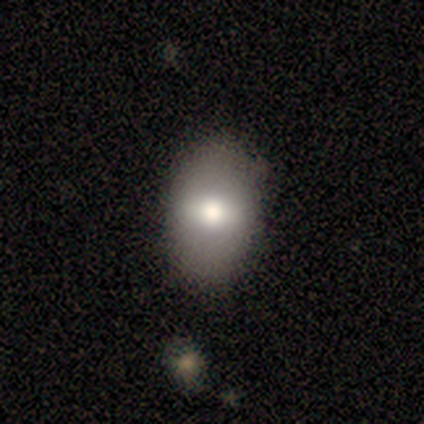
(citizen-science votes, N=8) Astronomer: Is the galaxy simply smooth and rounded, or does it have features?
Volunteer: smooth — 75%.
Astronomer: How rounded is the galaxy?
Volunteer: in between — 100%.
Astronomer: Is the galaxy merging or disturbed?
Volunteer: none — 100%.